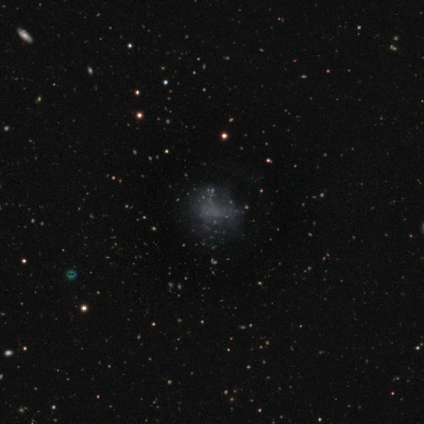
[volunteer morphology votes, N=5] type=smooth (60%); roundness=round (67%); merging=none (67%).